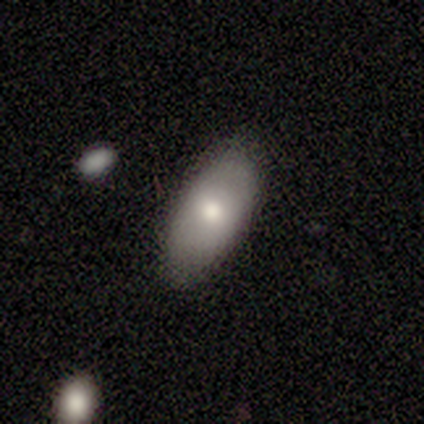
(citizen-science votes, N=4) Overall: smooth (50%, tied with featured or disk). How rounded: in between (100%). Merging: none (50%; minor disturbance 25%).